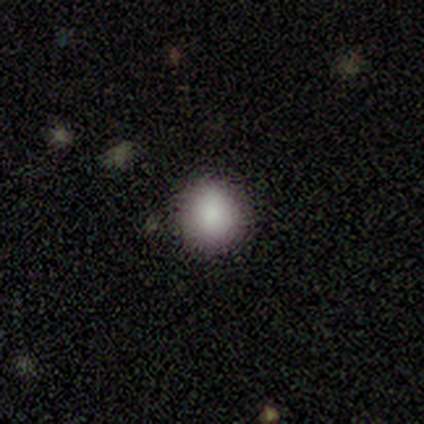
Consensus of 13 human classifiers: smooth 92%, star or artifact 8%, featured or disk 0%. Down the decision tree: how rounded — round (83%); merging — none (83%).